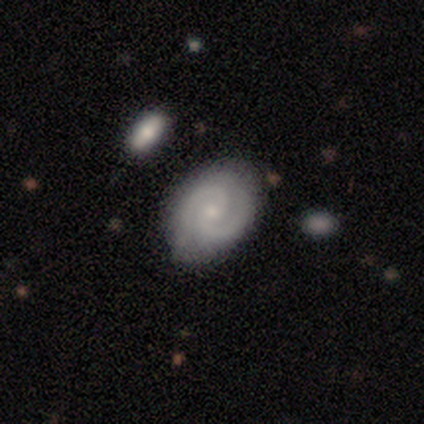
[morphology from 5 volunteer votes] This appears to be a featured or disk galaxy (80%) with a weak bar (50%, tied with no), 2 (100%) medium (75%) spiral arms (100%) and a moderate central bulge (50%, tied with small). Merging: none (60%).